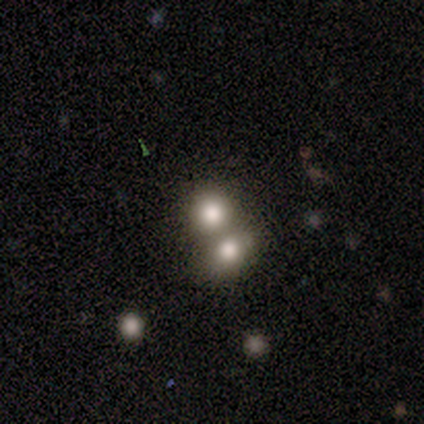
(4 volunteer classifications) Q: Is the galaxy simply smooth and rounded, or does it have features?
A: featured or disk — 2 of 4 (50%).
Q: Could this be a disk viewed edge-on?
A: no — 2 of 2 (100%).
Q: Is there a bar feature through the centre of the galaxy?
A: no — 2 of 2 (100%).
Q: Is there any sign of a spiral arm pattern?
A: no — 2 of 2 (100%).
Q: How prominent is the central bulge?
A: dominant — 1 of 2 (50%, tied with large).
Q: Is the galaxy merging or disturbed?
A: merger — 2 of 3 (67%).